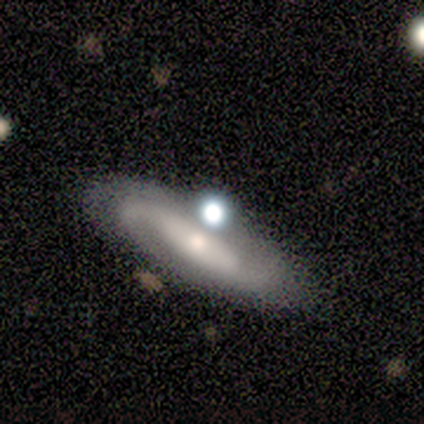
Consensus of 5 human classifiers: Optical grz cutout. It shows a featured or disk galaxy (100%) with no bar (75%), 2 (75%) medium (50%, tied with loose) spiral arms (100%) and a small central bulge (75%). Merging: none (60%).